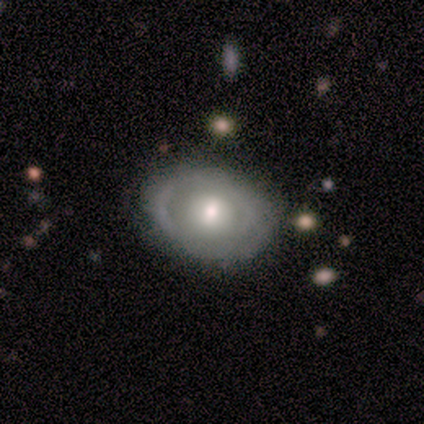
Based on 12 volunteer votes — smooth_or_featured: smooth (p=0.58) [alt: featured or disk p=0.42]
how_rounded: in between (p=0.86) [alt: round p=0.14]
merging: none (p=0.75) [alt: minor disturbance p=0.17]